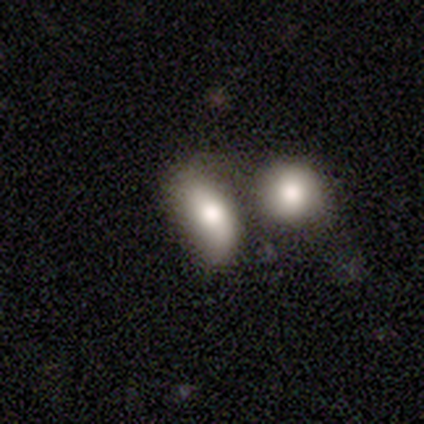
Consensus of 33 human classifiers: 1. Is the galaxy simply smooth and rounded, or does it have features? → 82% smooth, 15% featured or disk, 3% star or artifact.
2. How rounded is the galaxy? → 70% in between, 22% round, 7% cigar-shaped.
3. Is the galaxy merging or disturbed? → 66% merger, 0% none, 0% minor disturbance, 0% major disturbance.